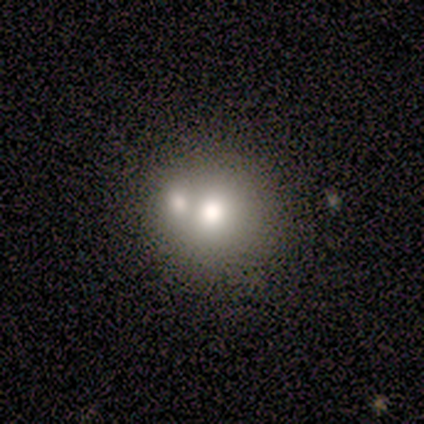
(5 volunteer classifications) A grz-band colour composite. It shows a smooth galaxy with no disk features (60%) that is round (67%). Merging: merger (60%).